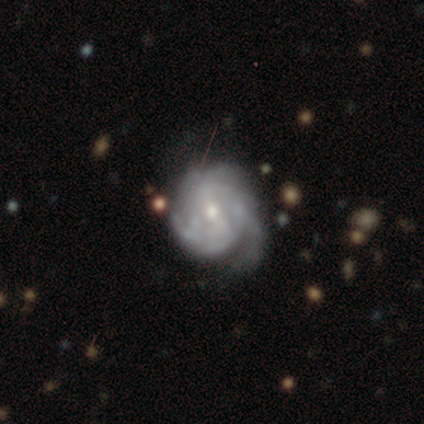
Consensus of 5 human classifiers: Smooth or featured?
  - featured or disk: 80% *
  - star or artifact: 20%
  - smooth: 0%
Edge-on disk?
  - no: 100% *
  - yes: 0%
Bar?
  - weak: 50% *
  - strong: 25%
  - no: 25%
Spiral arms?
  - yes: 100% *
  - no: 0%
Spiral winding?
  - tight: 50% * (tied)
  - medium: 50% * (tied)
  - loose: 0%
Spiral arm count?
  - can't tell: 100% *
  - 1: 0%
  - 2: 0%
  - 3: 0%
  - 4: 0%
  - more than 4: 0%
Bulge size?
  - moderate: 50% * (tied)
  - small: 50% * (tied)
  - dominant: 0%
  - large: 0%
  - none: 0%
Merging?
  - minor disturbance: 50% *
  - none: 25%
  - major disturbance: 25%
  - merger: 0%